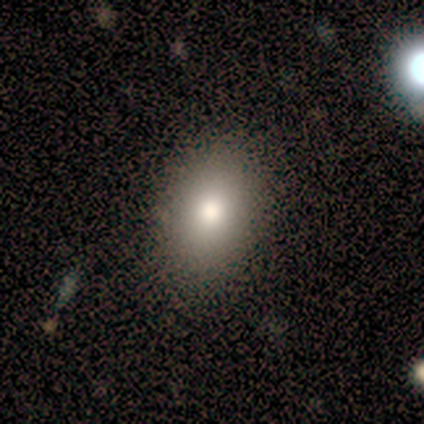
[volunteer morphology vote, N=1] type=featured or disk (100%); edge-on=no (100%); bar=no (100%); spiral arms=no (100%); bulge=large (100%); merging=none (100%).